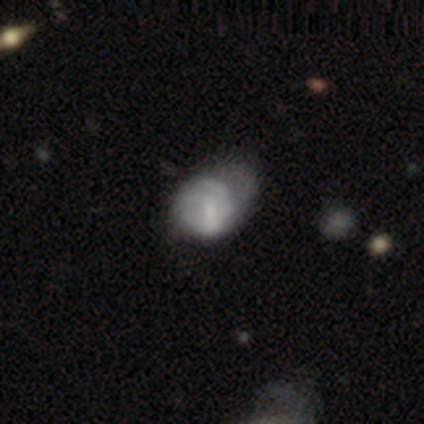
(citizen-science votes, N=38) Smooth or featured: smooth — 58% (featured or disk — 39%)
How rounded: in between — 55% (round — 45%)
Merging: major disturbance — 46% (minor disturbance — 41%)